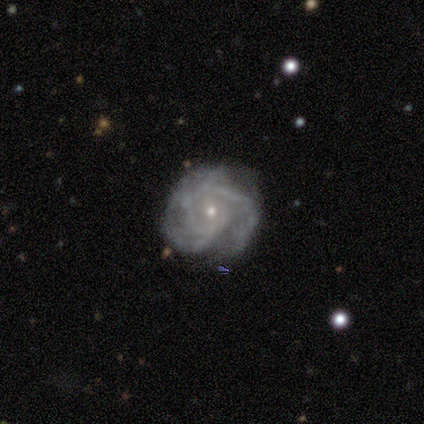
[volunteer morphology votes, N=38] Volunteers were most divided on "spiral arm count": 3: 33%, can't tell: 30%, 2: 21%, more than 4: 9%, 4: 6%, 1: 0%. More confident: edge-on disk — no (97%); spiral arms — yes (97%); smooth or featured — featured or disk (92%); bulge size — small (76%); merging — none (65%); bar — no (65%); spiral winding — tight (58%).